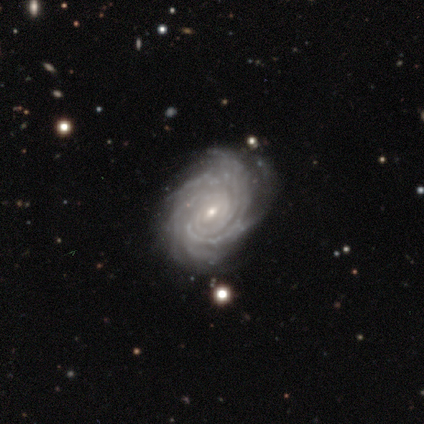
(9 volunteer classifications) featured or disk 100%, smooth 0%, star or artifact 0%. Down the decision tree: edge-on disk — no (78%); bar — no (71%); spiral arms — yes (100%); spiral arm count — 4 (43%, tied with more than 4); spiral winding — tight (71%); bulge size — small (86%); merging — none (56%).